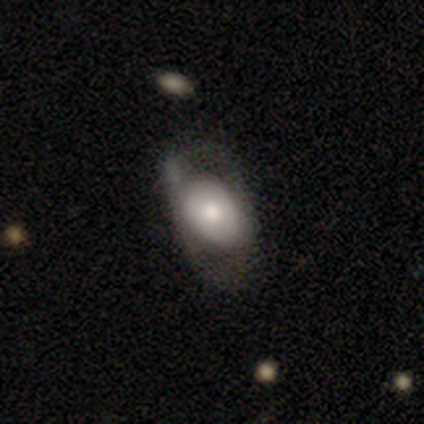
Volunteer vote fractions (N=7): This is marginally a featured or disk galaxy (43%). It is likely viewed edge-on (67%). Edge-on bulge: clearly rounded (100%). Merging: marginally none (40%, tied with minor disturbance).